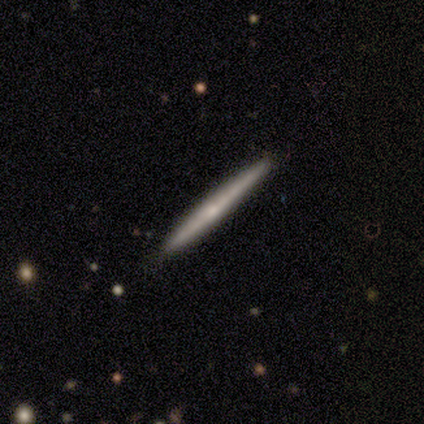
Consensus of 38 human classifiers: A featured or disk galaxy (63%) viewed edge-on (100%) with no central bulge (67%).

Vote fractions:
- Smooth or featured? featured or disk: 63% / smooth: 32% / star or artifact: 5%
- Edge-on disk? yes: 100% / no: 0%
- Edge-on bulge? none: 67% / rounded: 33% / boxy: 0%
- Merging? none: 97% / minor disturbance: 3% / major disturbance: 0% / merger: 0%